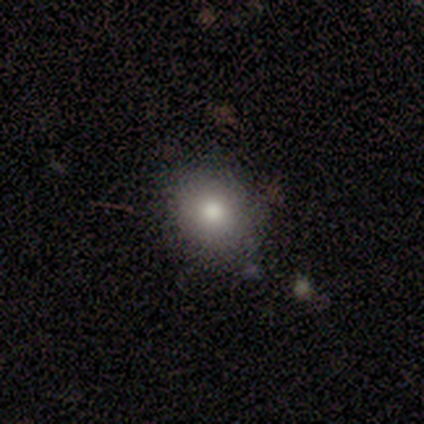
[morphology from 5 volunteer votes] A smooth galaxy with no disk features (80%) that is round (50%, tied with in between). Merging: none (75%).